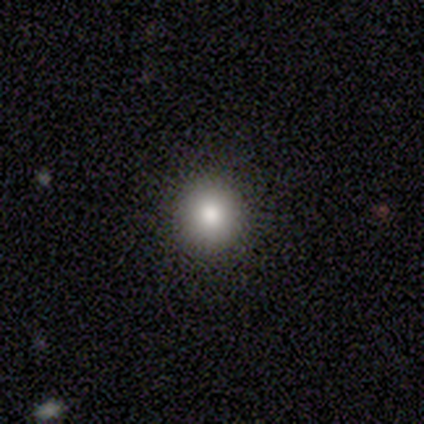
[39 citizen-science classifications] A smooth galaxy with no disk features (69%) that is round (89%). Merging: none (90%).